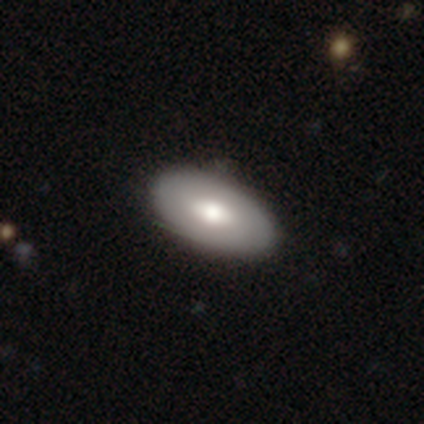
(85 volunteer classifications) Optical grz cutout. It shows a smooth galaxy with no disk features (67%) that is in between round and cigar-shaped (89%). Merging: none (90%).